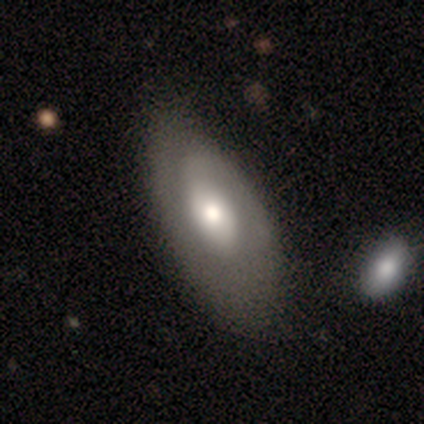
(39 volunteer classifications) Smooth or featured? 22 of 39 (56%) said featured or disk. Edge-on disk? 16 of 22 (73%) said no. Bar? 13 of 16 (81%) said no. Spiral arms? 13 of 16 (81%) said yes. Spiral winding? 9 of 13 (69%) said tight. Spiral arm count? 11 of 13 (85%) said 1. Bulge size? 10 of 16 (62%) said moderate. Merging? 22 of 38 (58%) said none.